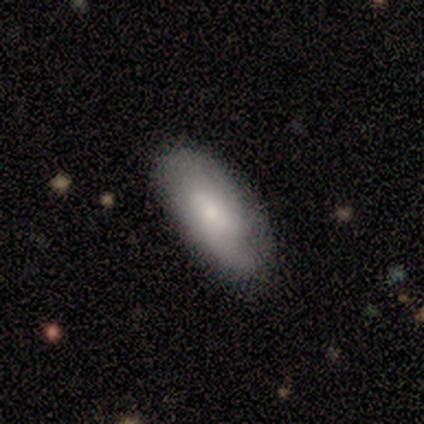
Smooth or featured?
  - smooth: 80% *
  - featured or disk: 20%
  - star or artifact: 0%
How rounded?
  - in between: 100% *
  - round: 0%
  - cigar-shaped: 0%
Merging?
  - none: 80% *
  - minor disturbance: 20%
  - major disturbance: 0%
  - merger: 0%